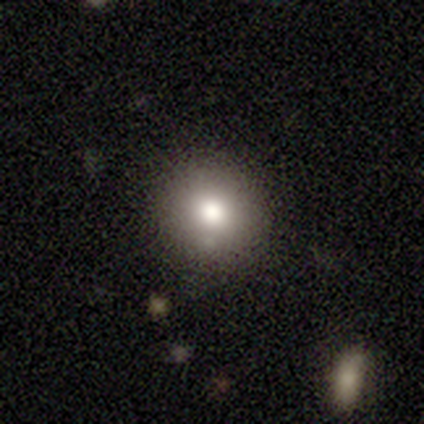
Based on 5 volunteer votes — Smooth or featured? featured or disk (40%, tied with star or artifact)
Edge-on disk? no (100%)
Bar? weak (50%, tied with no)
Spiral arms? no (100%)
Bulge size? moderate (50%, tied with small)
Merging? none (67%)